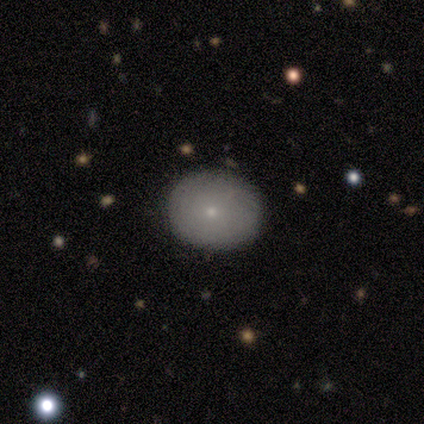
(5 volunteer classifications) smooth-or-featured: smooth: 100% | featured or disk: 0% | star or artifact: 0%
  how-rounded: round: 100% | in between: 0% | cigar-shaped: 0%
  merging: none: 100% | minor disturbance: 0% | major disturbance: 0% | merger: 0%